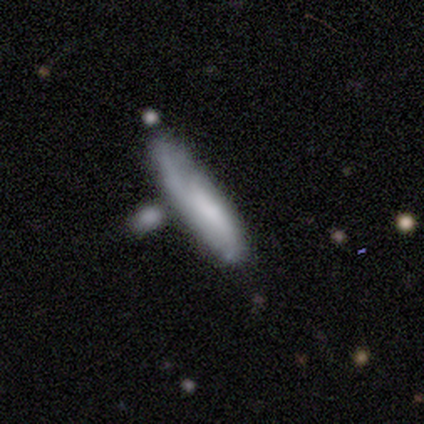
Overall: featured or disk (56%; smooth 33%). Edge-on disk: yes (60%; no 40%). Edge-on bulge: none (100%). Merging: none (50%; minor disturbance 38%).